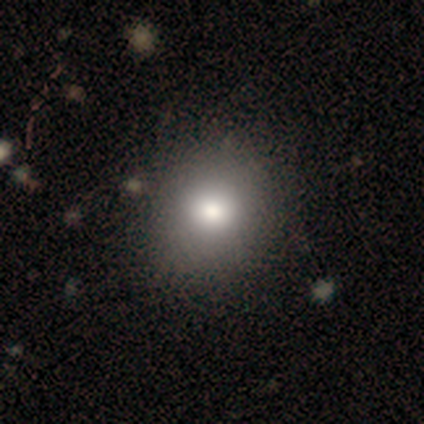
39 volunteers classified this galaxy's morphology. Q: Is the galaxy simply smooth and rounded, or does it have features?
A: smooth — 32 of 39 (82%).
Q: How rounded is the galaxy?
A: round — 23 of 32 (72%).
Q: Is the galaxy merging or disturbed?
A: none — 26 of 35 (74%).